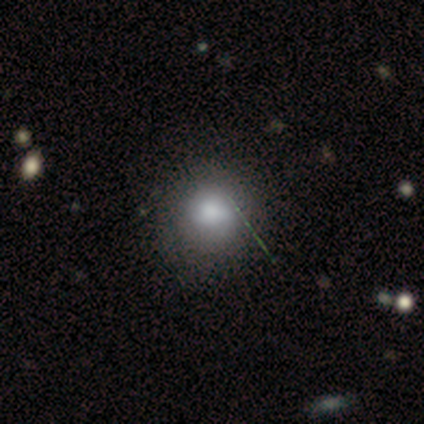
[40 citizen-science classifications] Smooth or featured? smooth (78%)
How rounded? round (94%)
Merging? none (48%)